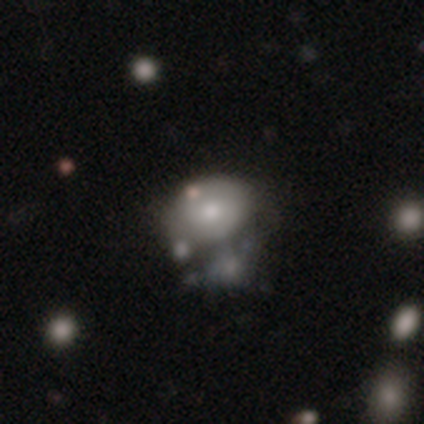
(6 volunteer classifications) Smooth or featured: smooth — 50% (tied with featured or disk — 50%)
How rounded: in between — 100%
Merging: merger — 50% (major disturbance — 33%)